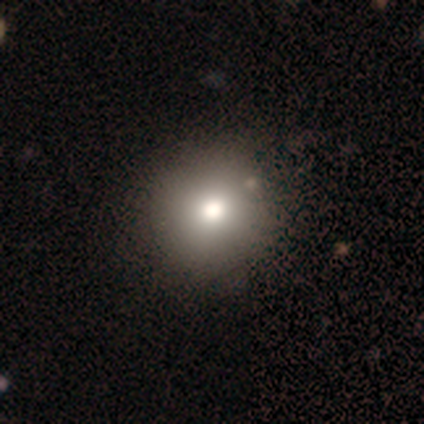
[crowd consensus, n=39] smooth 85%, featured or disk 8%, star or artifact 8%. Down the decision tree: how rounded — round (97%); merging — none (47%).